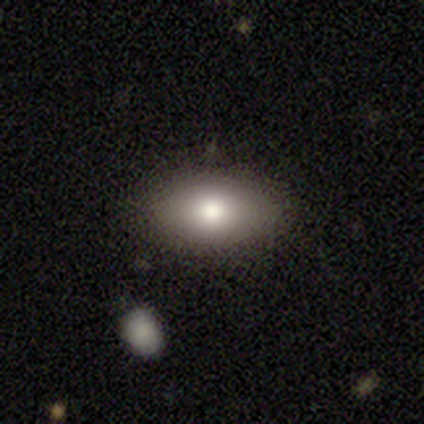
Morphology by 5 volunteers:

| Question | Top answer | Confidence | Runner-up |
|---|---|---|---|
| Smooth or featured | smooth | 80% | featured or disk (20%) |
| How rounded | in between | 100% | — |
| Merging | none | 80% | major disturbance (20%) |